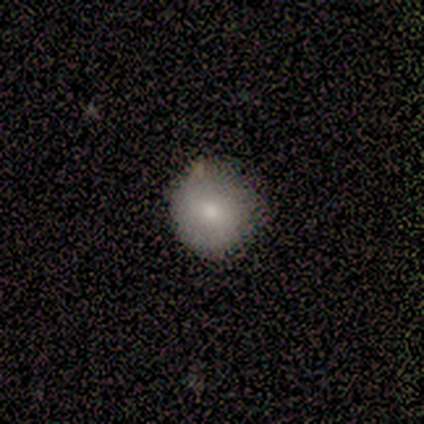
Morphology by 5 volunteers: smooth_or_featured: smooth (p=0.80) [alt: featured or disk p=0.20]
how_rounded: round (p=1.00)
merging: none (p=0.60) [alt: minor disturbance p=0.40]